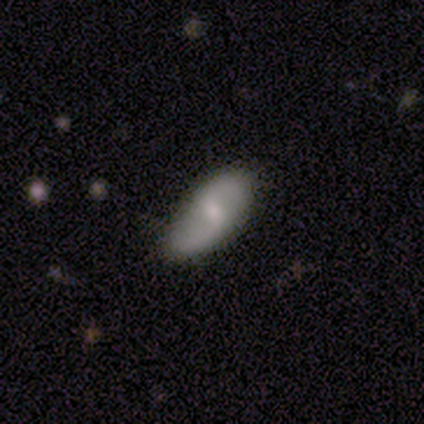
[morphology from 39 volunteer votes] featured or disk 56%, smooth 41%, star or artifact 3%. Down the decision tree: edge-on disk — no (100%); bar — weak (77%); spiral arms — yes (91%); spiral arm count — 2 (100%); spiral winding — loose (50%); bulge size — small (45%); merging — none (84%).